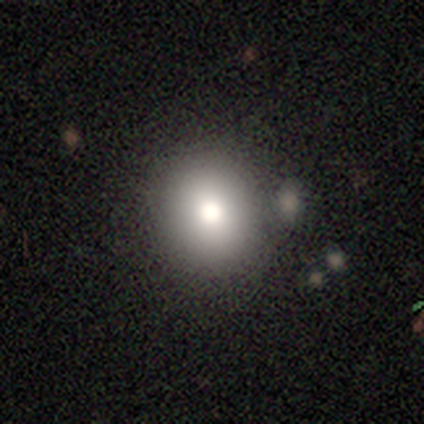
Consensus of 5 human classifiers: Volunteers were most divided on "merging": none: 75%, minor disturbance: 25%, major disturbance: 0%, merger: 0%. More confident: how rounded — round (100%); smooth or featured — smooth (80%).